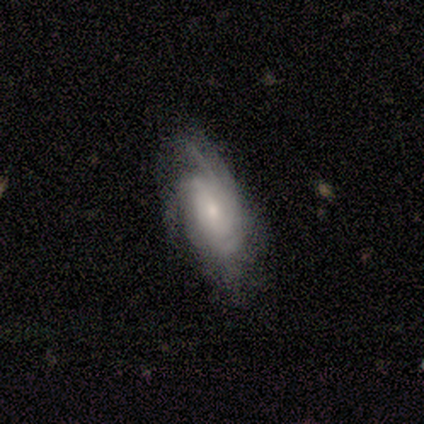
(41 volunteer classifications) Q: Smooth or featured?
A: featured or disk (83%); runner-up: smooth (17%)
Q: Edge-on disk?
A: no (94%); runner-up: yes (6%)
Q: Bar?
A: no (69%); runner-up: weak (31%)
Q: Spiral arms?
A: yes (100%)
Q: Spiral winding?
A: tight (53%); runner-up: medium (34%)
Q: Spiral arm count?
A: can't tell (56%); runner-up: 4 (28%)
Q: Bulge size?
A: small (53%); runner-up: moderate (47%)
Q: Merging?
A: none (34%); runner-up: minor disturbance (17%)